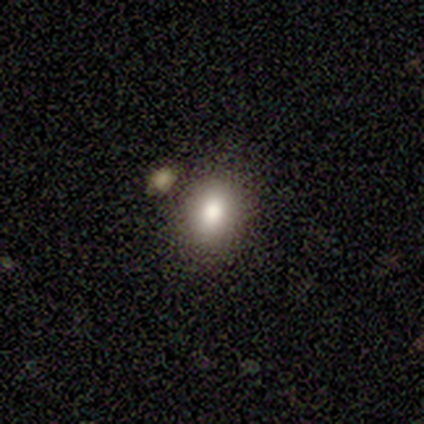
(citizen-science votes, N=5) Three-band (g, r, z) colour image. It shows a smooth galaxy with no disk features (80%) that is round (50%, tied with in between). Merging: none (100%).